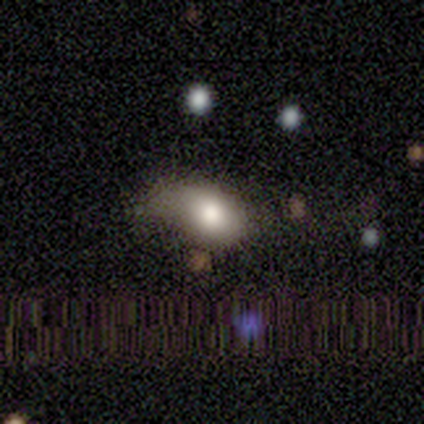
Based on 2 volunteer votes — smooth 50% (tied), star or artifact 50% (tied), featured or disk 0%. Down the decision tree: how rounded — in between (100%); merging — major disturbance (100%).